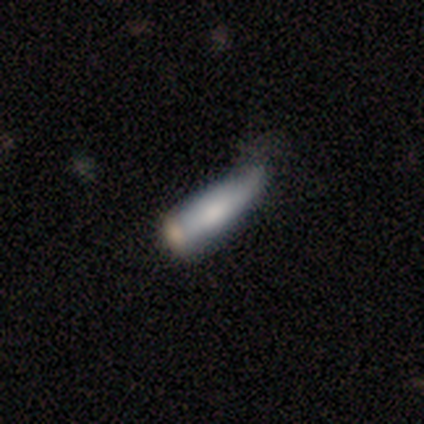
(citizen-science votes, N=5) smooth-or-featured: smooth: 80% | featured or disk: 20% | star or artifact: 0%
  how-rounded: in between: 50% (tied) | cigar-shaped: 50% (tied) | round: 0%
  merging: none: 40% (tied) | minor disturbance: 40% (tied) | merger: 20% | major disturbance: 0%